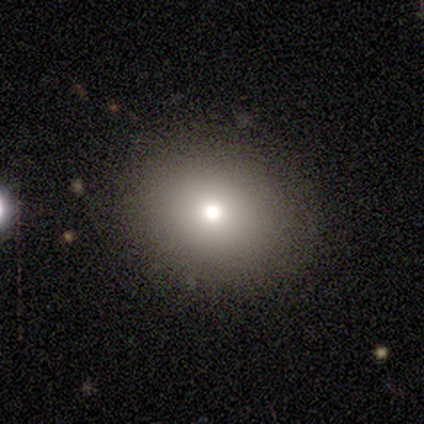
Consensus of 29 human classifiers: Overall: smooth (93%). How rounded: in between (52%; round 48%). Merging: none (41%; merger 7%).